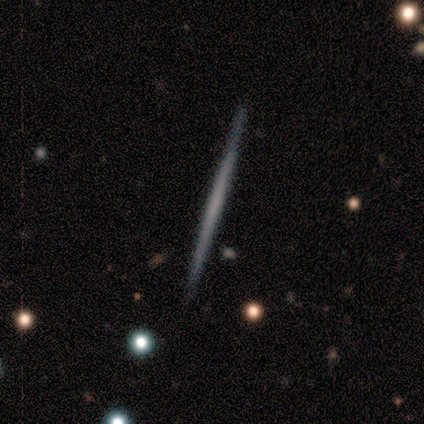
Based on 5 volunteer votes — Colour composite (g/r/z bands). It shows a smooth galaxy with no disk features (80%) that is cigar-shaped (100%). Merging: none (100%).